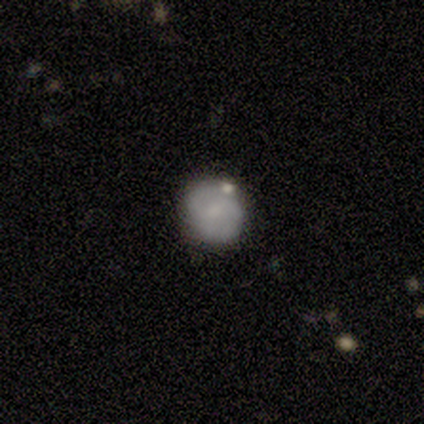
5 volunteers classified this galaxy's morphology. Smooth or featured? featured or disk (60%)
Edge-on disk? no (100%)
Bar? no (67%)
Spiral arms? yes (100%)
Spiral winding? tight (67%)
Spiral arm count? 2 (67%)
Bulge size? none (67%)
Merging? none (80%)